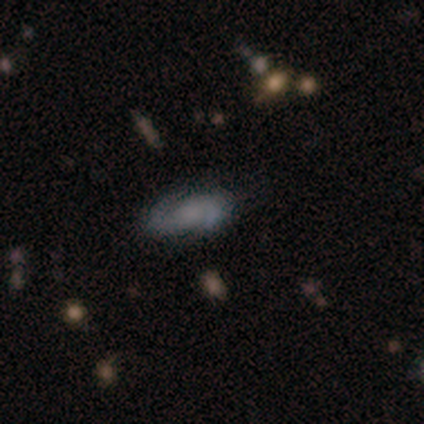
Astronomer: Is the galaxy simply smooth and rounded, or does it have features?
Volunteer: featured or disk — 100%.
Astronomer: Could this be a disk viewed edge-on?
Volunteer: no — 100%.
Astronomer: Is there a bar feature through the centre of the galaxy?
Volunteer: no — 60% (runner-up: weak, 40%).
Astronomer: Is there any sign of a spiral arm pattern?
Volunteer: yes — 100%.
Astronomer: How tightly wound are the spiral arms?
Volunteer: medium — 60% (runner-up: loose, 40%).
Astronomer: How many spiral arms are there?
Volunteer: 2 — 100%.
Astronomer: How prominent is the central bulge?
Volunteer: none — 60%.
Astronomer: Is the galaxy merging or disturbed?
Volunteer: none — 80%.